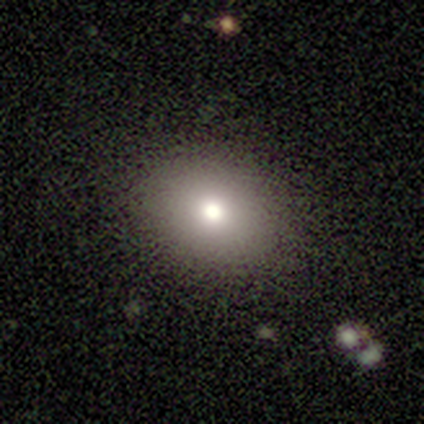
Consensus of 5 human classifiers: Smooth or featured?
  - smooth: 80% *
  - featured or disk: 20%
  - star or artifact: 0%
How rounded?
  - round: 100% *
  - in between: 0%
  - cigar-shaped: 0%
Merging?
  - none: 100% *
  - minor disturbance: 0%
  - major disturbance: 0%
  - merger: 0%